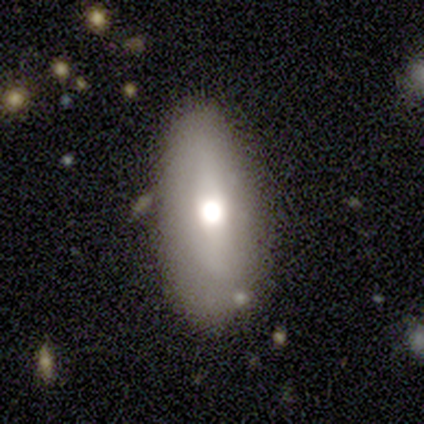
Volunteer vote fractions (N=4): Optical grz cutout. It shows a smooth galaxy with no disk features (100%) that is in between round and cigar-shaped (100%). Merging: none (100%).